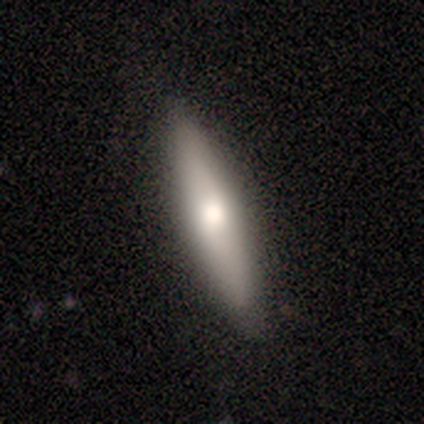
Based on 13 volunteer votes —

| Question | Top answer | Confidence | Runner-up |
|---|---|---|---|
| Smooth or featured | smooth | 54% | featured or disk (31%) |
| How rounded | cigar-shaped | 57% | in between (43%) |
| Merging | none | 82% | minor disturbance (18%) |